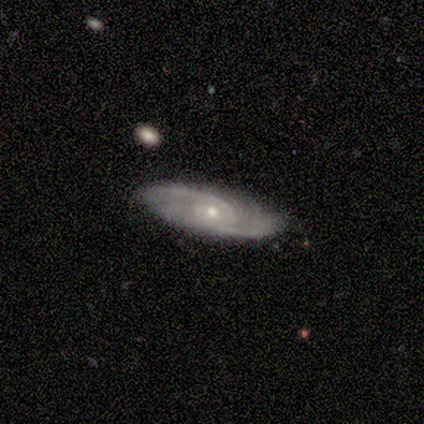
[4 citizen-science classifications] Smooth or featured: featured or disk — 75% (star or artifact — 25%)
Edge-on disk: no — 100%
Bar: no — 67% (weak — 33%)
Spiral arms: yes — 100%
Spiral winding: medium — 67% (tight — 33%)
Spiral arm count: 2 — 67% (can't tell — 33%)
Bulge size: moderate — 67% (small — 33%)
Merging: none — 67% (minor disturbance — 33%)